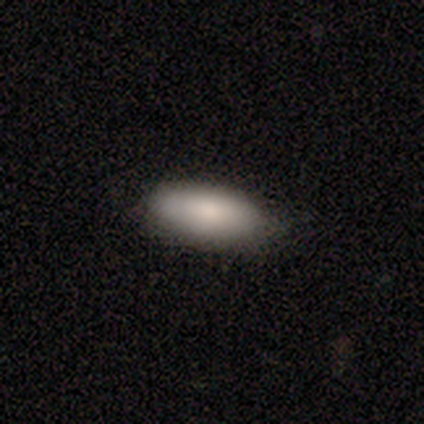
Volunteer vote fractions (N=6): Q: Smooth or featured?
A: smooth (67%); runner-up: featured or disk (17%)
Q: How rounded?
A: in between (100%)
Q: Merging?
A: none (100%)